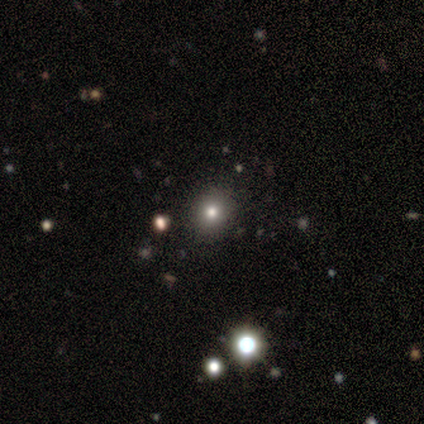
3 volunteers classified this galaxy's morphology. Smooth or featured?
  - smooth: 100% *
  - featured or disk: 0%
  - star or artifact: 0%
How rounded?
  - round: 67% *
  - in between: 33%
  - cigar-shaped: 0%
Merging?
  - none: 100% *
  - minor disturbance: 0%
  - major disturbance: 0%
  - merger: 0%